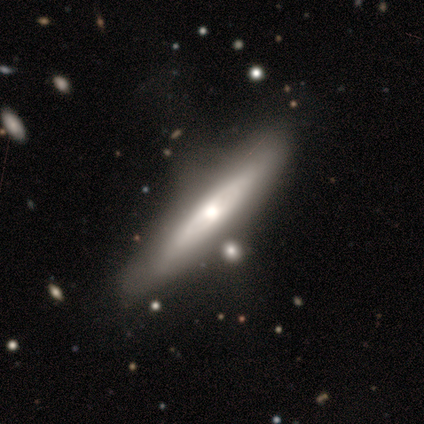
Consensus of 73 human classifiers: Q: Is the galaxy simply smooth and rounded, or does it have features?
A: featured or disk — 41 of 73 (56%).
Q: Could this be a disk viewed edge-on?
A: yes — 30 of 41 (73%).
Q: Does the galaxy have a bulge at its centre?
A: rounded — 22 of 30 (73%).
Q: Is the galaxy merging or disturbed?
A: none — 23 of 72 (32%).